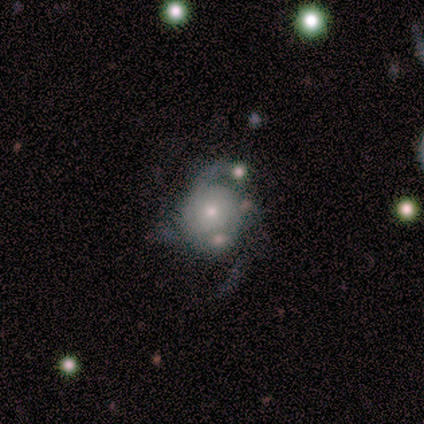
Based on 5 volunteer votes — Smooth or featured? featured or disk (80%)
Edge-on disk? no (100%)
Bar? no (100%)
Spiral arms? yes (100%)
Spiral winding? loose (50%)
Spiral arm count? 2 (50%)
Bulge size? moderate (75%)
Merging? major disturbance (60%)